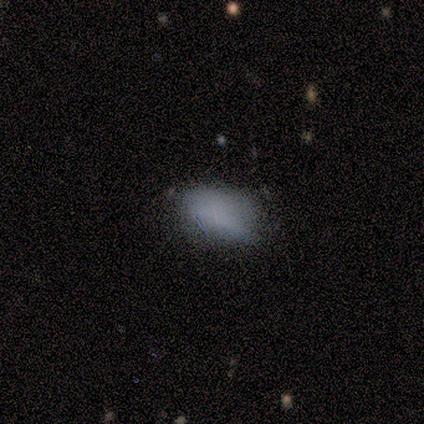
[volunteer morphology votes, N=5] smooth_or_featured: smooth (p=0.80) [alt: star or artifact p=0.20]
how_rounded: in between (p=1.00)
merging: minor disturbance (p=0.50) [alt: none p=0.25]